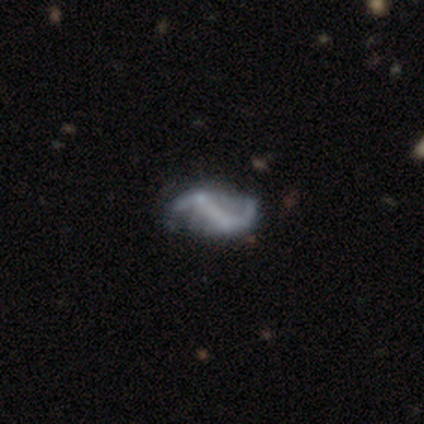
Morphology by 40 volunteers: Smooth or featured: featured or disk — 78% (smooth — 12%)
Edge-on disk: no — 97% (yes — 3%)
Bar: strong — 50% (no — 30%)
Spiral arms: yes — 90% (no — 10%)
Spiral winding: loose — 85% (medium — 11%)
Spiral arm count: 2 — 85% (can't tell — 11%)
Bulge size: none — 87% (small — 13%)
Merging: none — 36% (minor disturbance — 11%)